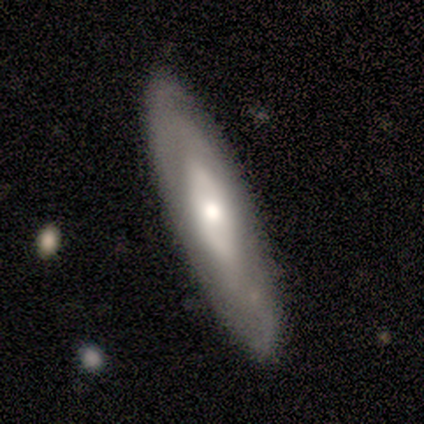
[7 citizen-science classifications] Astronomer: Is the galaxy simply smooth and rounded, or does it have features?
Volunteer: smooth — 71%.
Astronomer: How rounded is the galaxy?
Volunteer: cigar-shaped — 80%.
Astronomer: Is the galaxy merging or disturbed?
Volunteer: none — 86%.